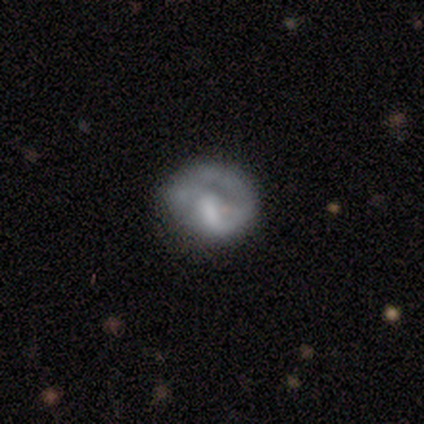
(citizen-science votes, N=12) smooth_or_featured: featured or disk (p=0.75) [alt: smooth p=0.25]
disk_edge_on: no (p=0.89) [alt: yes p=0.11]
bar: no (p=0.75) [alt: strong p=0.12]
has_spiral_arms: yes (p=0.50) [tied with: no p=0.50]
spiral_winding: tight (p=0.50) [alt: medium p=0.25]
spiral_arm_count: 1 (p=1.00)
bulge_size: moderate (p=0.50) [alt: none p=0.38]
merging: none (p=0.67) [alt: minor disturbance p=0.17]